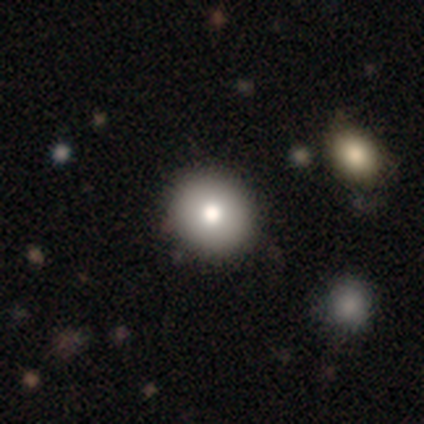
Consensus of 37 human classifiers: Q: Smooth or featured?
A: smooth (73%); runner-up: featured or disk (16%)
Q: How rounded?
A: round (96%); runner-up: in between (4%)
Q: Merging?
A: none (70%); runner-up: merger (3%)